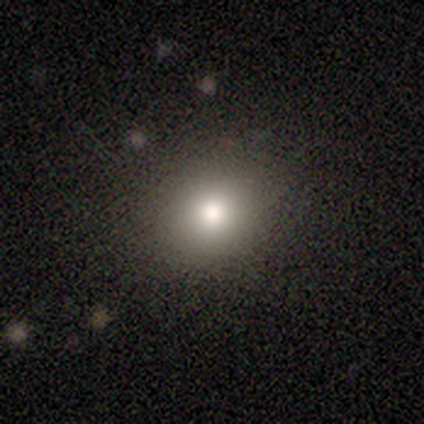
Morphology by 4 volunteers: Smooth or featured: smooth — 75% (star or artifact — 25%)
How rounded: round — 100%
Merging: none — 67% (major disturbance — 33%)